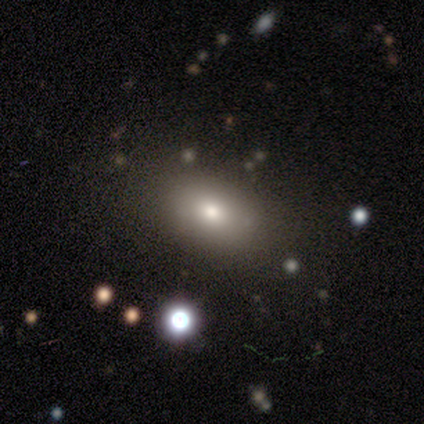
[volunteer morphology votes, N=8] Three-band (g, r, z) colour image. It shows a smooth galaxy with no disk features (75%) that is in between round and cigar-shaped (83%). Merging: none (100%).